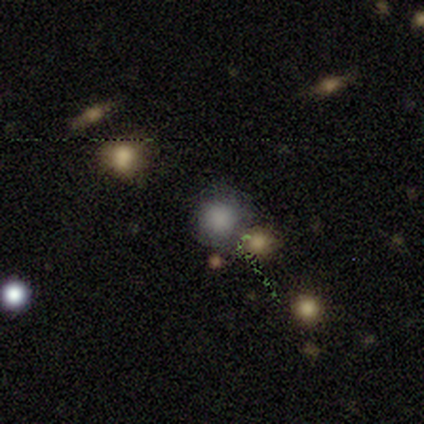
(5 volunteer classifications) Smooth or featured? 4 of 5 (80%) said smooth. How rounded? 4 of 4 (100%) said round. Merging? 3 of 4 (75%) said none.